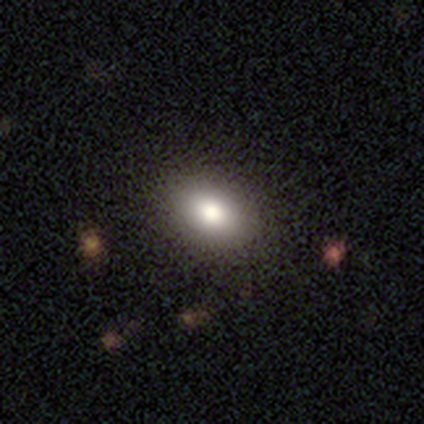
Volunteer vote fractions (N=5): Smooth or featured? 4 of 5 (80%) said smooth. How rounded? 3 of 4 (75%) said in between. Merging? 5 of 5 (100%) said none.